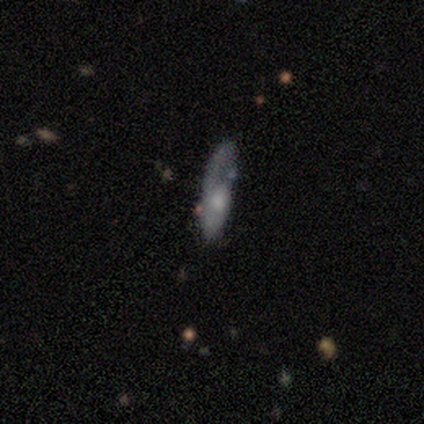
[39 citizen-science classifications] Smooth or featured? smooth (54%)
How rounded? cigar-shaped (62%)
Merging? none (43%)